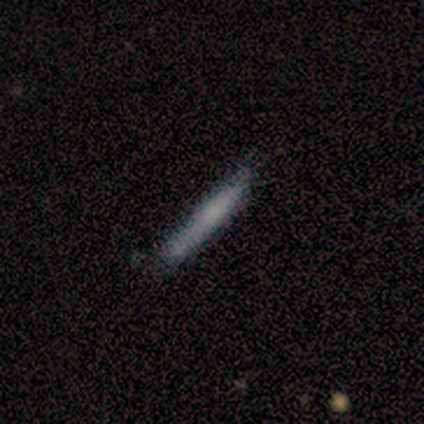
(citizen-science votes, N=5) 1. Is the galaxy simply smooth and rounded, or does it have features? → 60% smooth, 20% featured or disk, 20% star or artifact.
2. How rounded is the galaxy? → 100% cigar-shaped, 0% round, 0% in between.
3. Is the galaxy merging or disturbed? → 50% none, 25% minor disturbance, 25% merger, 0% major disturbance.